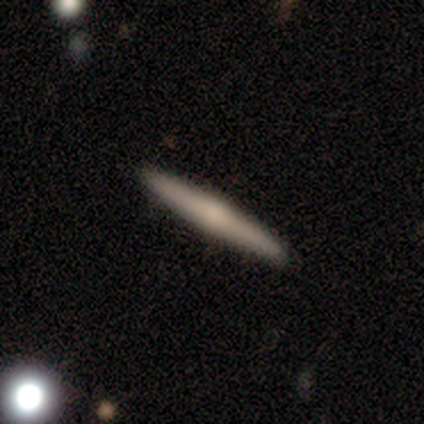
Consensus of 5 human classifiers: Smooth or featured: smooth — 80% (featured or disk — 20%)
How rounded: cigar-shaped — 100%
Merging: none — 100%